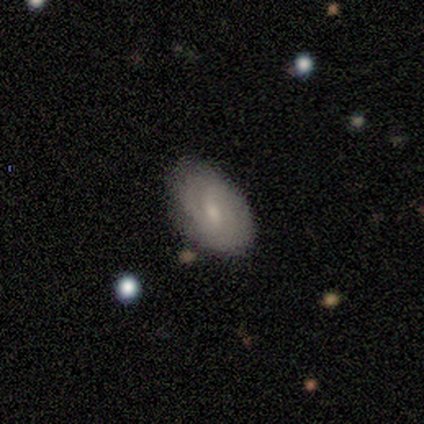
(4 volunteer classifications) Smooth or featured?
  - smooth: 75% *
  - featured or disk: 25%
  - star or artifact: 0%
How rounded?
  - in between: 100% *
  - round: 0%
  - cigar-shaped: 0%
Merging?
  - none: 50% * (tied)
  - minor disturbance: 50% * (tied)
  - major disturbance: 0%
  - merger: 0%